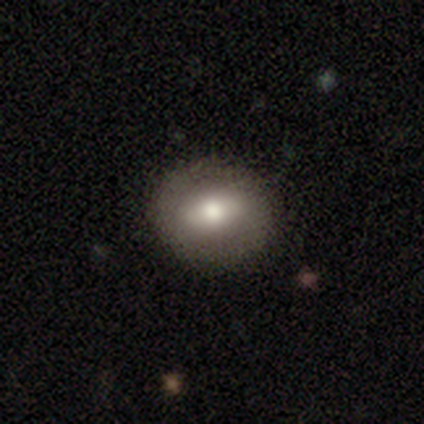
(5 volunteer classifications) A featured or disk galaxy (100%) with a strong bar (60%), no spiral arms (60%) and a dominant central bulge (40%, tied with moderate).

Vote fractions:
- Smooth or featured? featured or disk: 100% / smooth: 0% / star or artifact: 0%
- Edge-on disk? no: 100% / yes: 0%
- Bar? strong: 60% / weak: 20% / no: 20%
- Spiral arms? no: 60% / yes: 40%
- Bulge size? dominant: 40% (tied) / moderate: 40% (tied) / large: 20% / small: 0% / none: 0%
- Merging? none: 80% / minor disturbance: 20% / major disturbance: 0% / merger: 0%